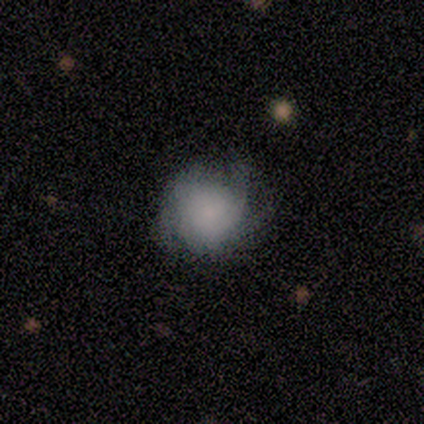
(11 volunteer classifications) Smooth or featured? 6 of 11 (55%) said smooth. How rounded? 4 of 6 (67%) said round. Merging? 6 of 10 (60%) said none.